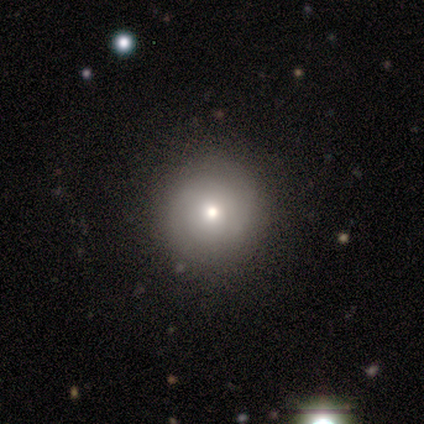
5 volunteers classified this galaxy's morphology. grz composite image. It shows a smooth galaxy with no disk features (40%, tied with star or artifact) that is round (100%). Merging: none (100%).